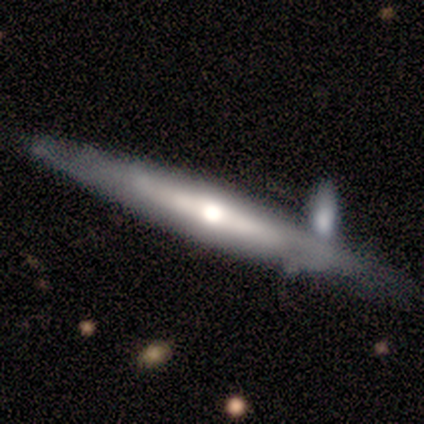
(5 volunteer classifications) Morphology: type=featured or disk (60%); edge-on=yes (100%); edge-on bulge=rounded (100%); merging=none (100%).